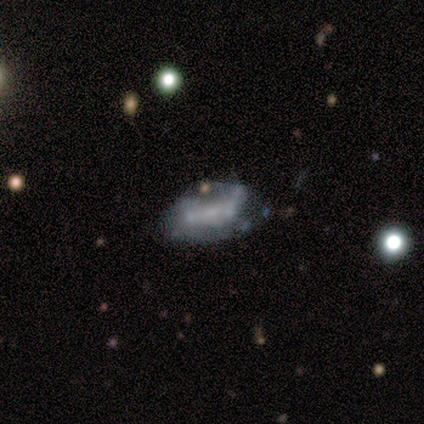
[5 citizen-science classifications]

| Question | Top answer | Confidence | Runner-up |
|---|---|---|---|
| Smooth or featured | smooth | 60% | featured or disk (20%) |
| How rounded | in between | 100% | — |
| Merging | none | 75% | minor disturbance (25%) |